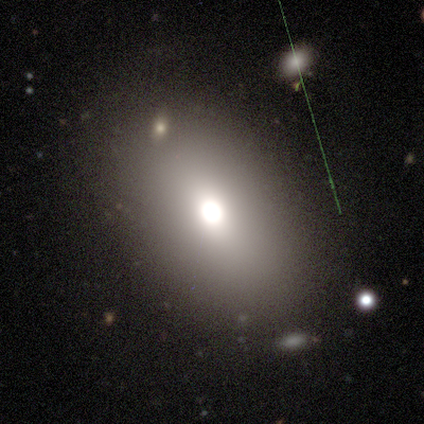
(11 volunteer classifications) A smooth galaxy with no disk features (55%) that is in between round and cigar-shaped (100%).

Vote fractions:
- Smooth or featured? smooth: 55% / star or artifact: 27% / featured or disk: 18%
- How rounded? in between: 100% / round: 0% / cigar-shaped: 0%
- Merging? none: 75% / minor disturbance: 12% / major disturbance: 12% / merger: 0%